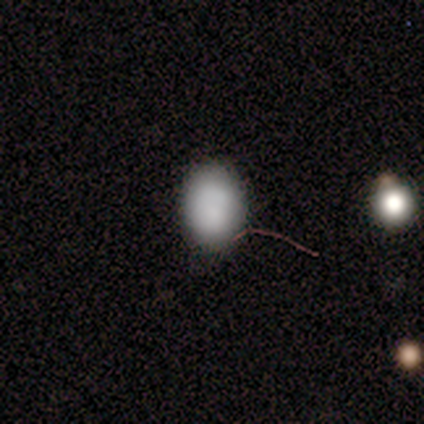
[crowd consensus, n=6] Smooth or featured?
  - smooth: 83% *
  - star or artifact: 17%
  - featured or disk: 0%
How rounded?
  - in between: 100% *
  - round: 0%
  - cigar-shaped: 0%
Merging?
  - none: 100% *
  - minor disturbance: 0%
  - major disturbance: 0%
  - merger: 0%